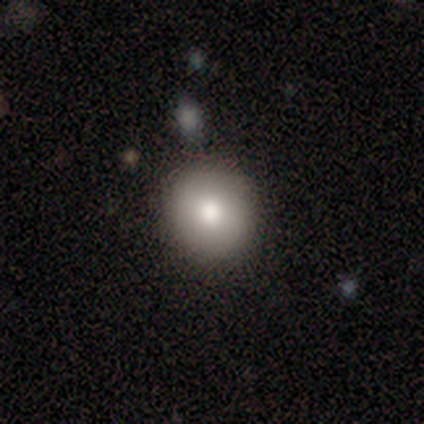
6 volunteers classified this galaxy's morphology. type=smooth (67%); roundness=round (100%); merging=none (100%).